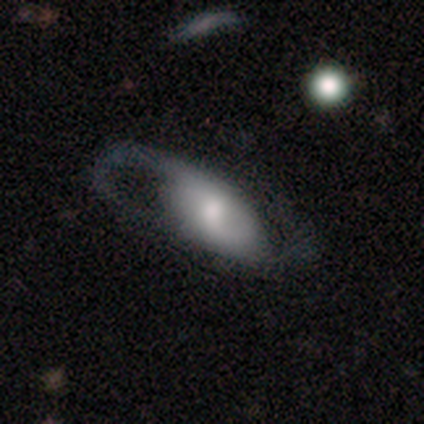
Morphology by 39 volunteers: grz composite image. It shows a featured or disk galaxy (77%) with no bar (70%), 2 (88%) loose (62%) spiral arms (89%) and a moderate central bulge (78%). Merging: none (37%).